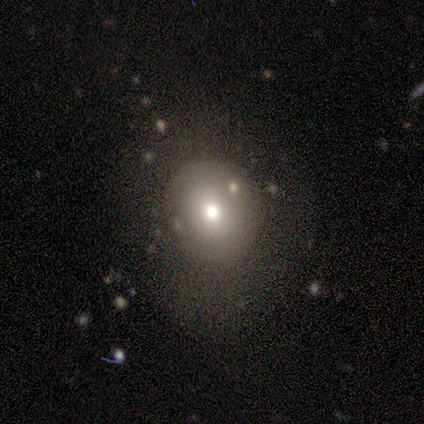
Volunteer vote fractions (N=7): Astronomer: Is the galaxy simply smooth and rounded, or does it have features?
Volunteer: smooth — 86%.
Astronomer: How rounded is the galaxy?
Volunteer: round — 83%.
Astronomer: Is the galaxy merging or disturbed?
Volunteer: none — 100%.